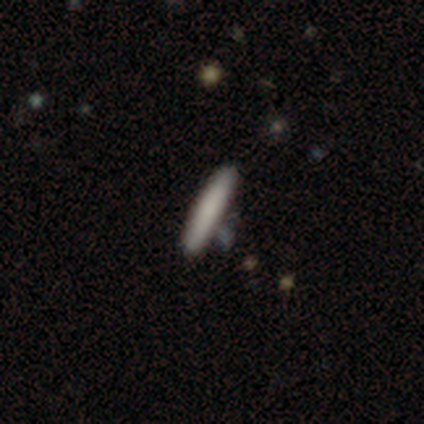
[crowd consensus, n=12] A smooth galaxy with no disk features (92%) that is cigar-shaped (91%).

Vote fractions:
- Smooth or featured? smooth: 92% / star or artifact: 8% / featured or disk: 0%
- How rounded? cigar-shaped: 91% / in between: 9% / round: 0%
- Merging? none: 82% / minor disturbance: 9% / merger: 9% / major disturbance: 0%